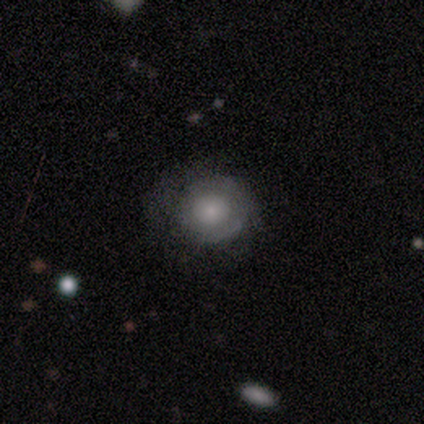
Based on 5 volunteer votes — A featured or disk galaxy (80%) with no bar (100%), tight (67%) spiral arms (75%) and a moderate central bulge (50%).

Vote fractions:
- Smooth or featured? featured or disk: 80% / smooth: 20% / star or artifact: 0%
- Edge-on disk? no: 100% / yes: 0%
- Bar? no: 100% / strong: 0% / weak: 0%
- Spiral arms? yes: 75% / no: 25%
- Spiral winding? tight: 67% / medium: 33% / loose: 0%
- Spiral arm count? can't tell: 67% / 2: 33% / 1: 0% / 3: 0% / 4: 0% / more than 4: 0%
- Bulge size? moderate: 50% / large: 25% / small: 25% / dominant: 0% / none: 0%
- Merging? none: 80% / major disturbance: 20% / minor disturbance: 0% / merger: 0%